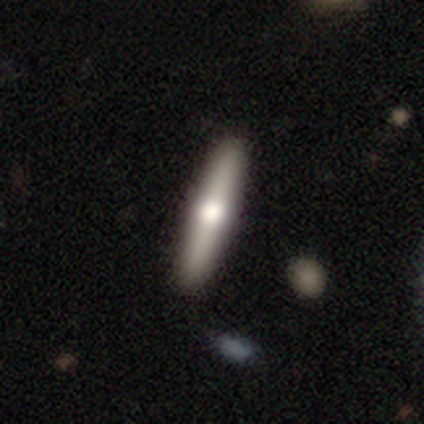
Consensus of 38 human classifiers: This appears to be a smooth galaxy with no disk features (50%) that is cigar-shaped (89%). Merging: none (70%).